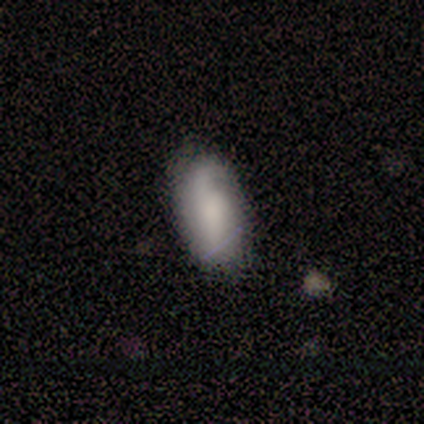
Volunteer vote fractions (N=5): A featured or disk galaxy (60%) with no bar (100%), 2 (67%) tight (33%, tied with medium and loose) spiral arms (100%) and a large central bulge (33%, tied with small and none). Merging: none (80%).